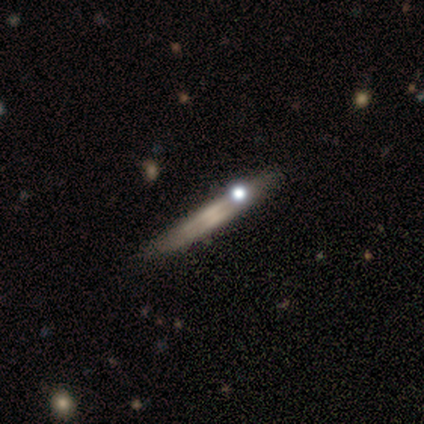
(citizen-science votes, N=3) Morphology: type=smooth (33%, tied with featured or disk and star or artifact); roundness=cigar-shaped (100%); merging=none (100%).